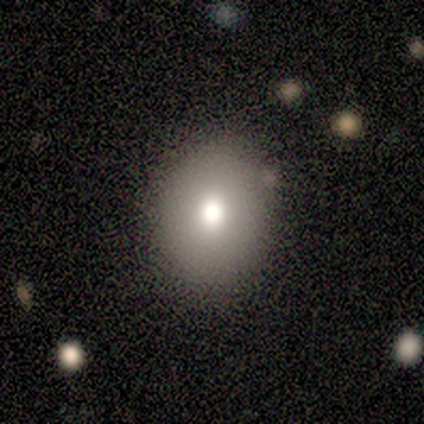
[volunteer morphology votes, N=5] Q: Smooth or featured?
A: smooth (80%); runner-up: featured or disk (20%)
Q: How rounded?
A: round (50%); tied with: in between (50%)
Q: Merging?
A: none (100%)